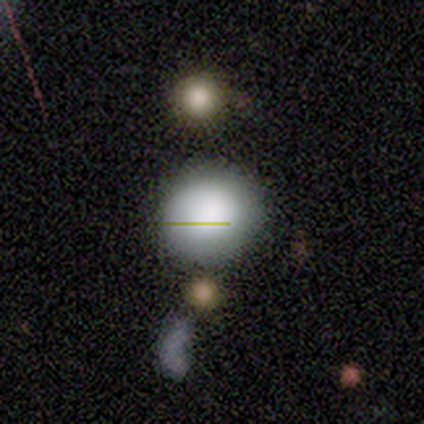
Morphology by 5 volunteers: smooth_or_featured: smooth (p=0.40) [tied with: star or artifact p=0.40]
how_rounded: round (p=1.00)
merging: none (p=1.00)